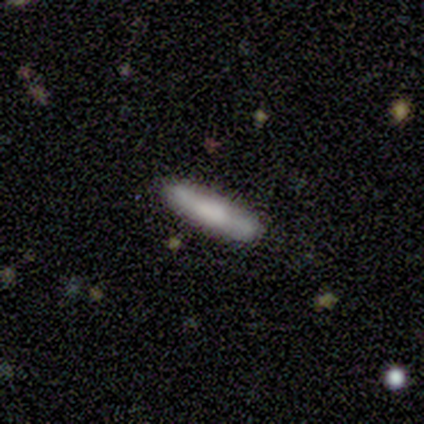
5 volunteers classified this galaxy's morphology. smooth-or-featured: featured or disk: 60% | smooth: 40% | star or artifact: 0%
  disk-edge-on: yes: 100% | no: 0%
    edge-on-bulge: none: 100% | boxy: 0% | rounded: 0%
  merging: none: 80% | minor disturbance: 20% | major disturbance: 0% | merger: 0%